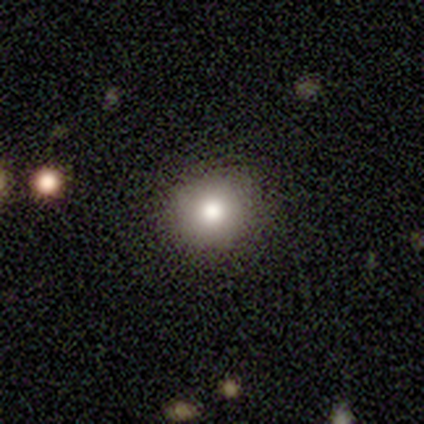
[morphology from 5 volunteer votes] A smooth galaxy with no disk features (100%) that is round (100%).

Vote fractions:
- Smooth or featured? smooth: 100% / featured or disk: 0% / star or artifact: 0%
- How rounded? round: 100% / in between: 0% / cigar-shaped: 0%
- Merging? none: 80% / minor disturbance: 20% / major disturbance: 0% / merger: 0%